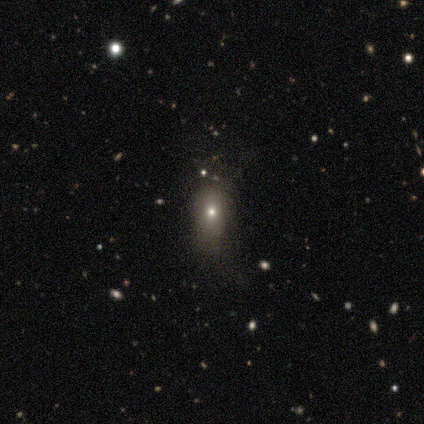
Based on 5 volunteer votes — Smooth or featured? smooth (40%, tied with star or artifact)
How rounded? round (50%, tied with in between)
Merging? none (67%)